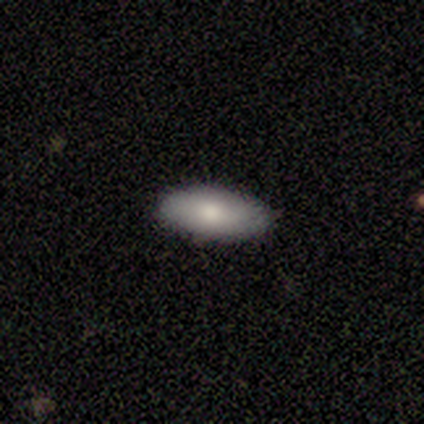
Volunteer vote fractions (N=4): Morphology: type=smooth (75%); roundness=in between (100%); merging=none (100%).